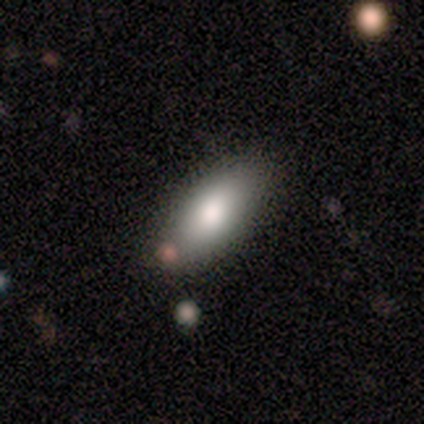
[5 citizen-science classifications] Smooth or featured? 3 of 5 (60%) said smooth. How rounded? 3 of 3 (100%) said in between. Merging? 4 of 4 (100%) said none.